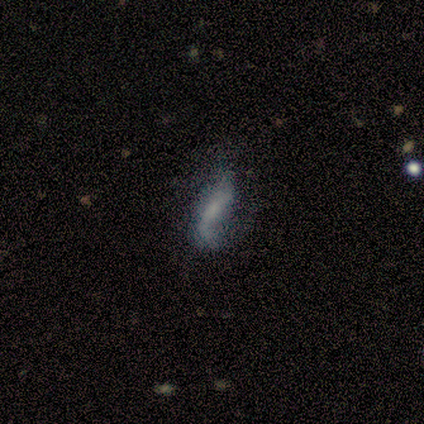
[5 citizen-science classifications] smooth_or_featured: featured or disk (p=0.60) [alt: smooth p=0.40]
disk_edge_on: yes (p=0.67) [alt: no p=0.33]
edge_on_bulge: none (p=1.00)
merging: none (p=0.40) [tied with: minor disturbance p=0.40]